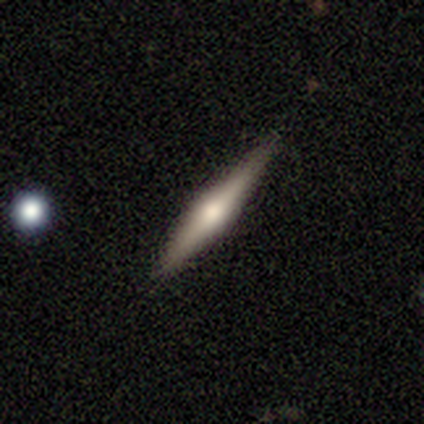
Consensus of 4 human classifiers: Smooth or featured?
  - featured or disk: 100% *
  - smooth: 0%
  - star or artifact: 0%
Edge-on disk?
  - yes: 100% *
  - no: 0%
Edge-on bulge?
  - rounded: 100% *
  - boxy: 0%
  - none: 0%
Merging?
  - none: 50% * (tied)
  - minor disturbance: 50% * (tied)
  - major disturbance: 0%
  - merger: 0%